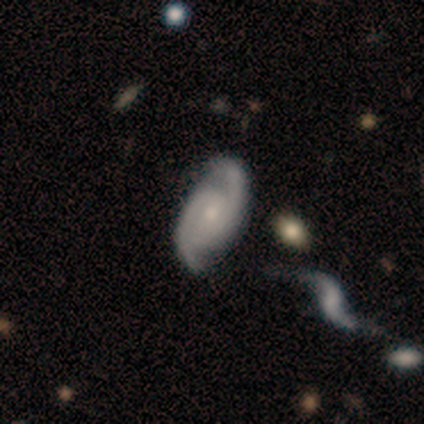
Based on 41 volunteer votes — Smooth or featured? featured or disk (93%)
Edge-on disk? no (97%)
Bar? no (70%)
Spiral arms? yes (97%)
Spiral winding? tight (53%)
Spiral arm count? 2 (94%)
Bulge size? small (54%)
Merging? none (63%)